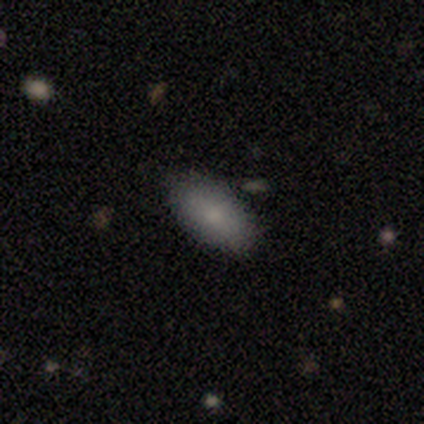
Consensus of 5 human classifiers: Smooth or featured? 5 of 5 (100%) said smooth. How rounded? 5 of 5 (100%) said in between. Merging? 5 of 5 (100%) said none.